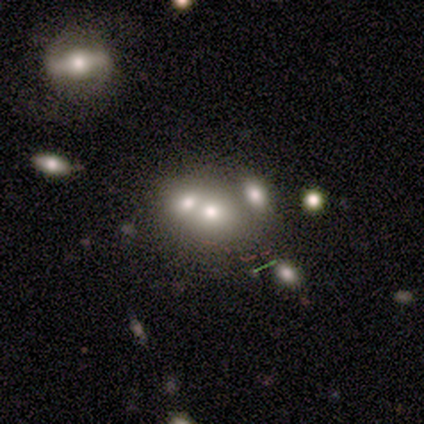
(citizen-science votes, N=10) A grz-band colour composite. It shows a smooth galaxy with no disk features (50%, tied with featured or disk) that is round (60%). Merging: merger (90%).